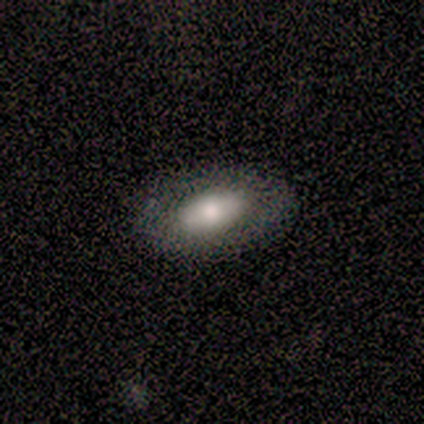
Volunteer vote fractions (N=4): Morphology: type=smooth (50%, tied with featured or disk); roundness=in between (100%); merging=none (100%).